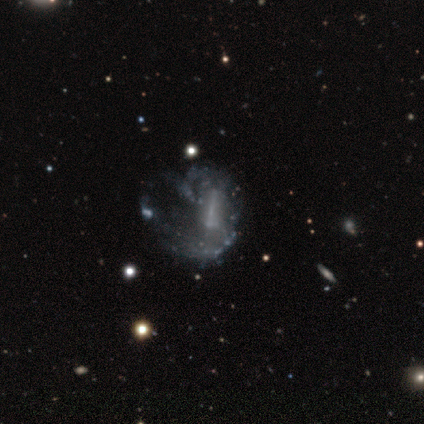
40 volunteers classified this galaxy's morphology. Overall: featured or disk (88%). Edge-on disk: no (100%). Bar: strong (43%; no 31%). Spiral arms: yes (51%; no 49%). Spiral arm count: 2 (50%; can't tell 39%). Spiral winding: loose (50%; medium 44%). Bulge size: none (54%; small 29%). Merging: major disturbance (38%; none 16%).